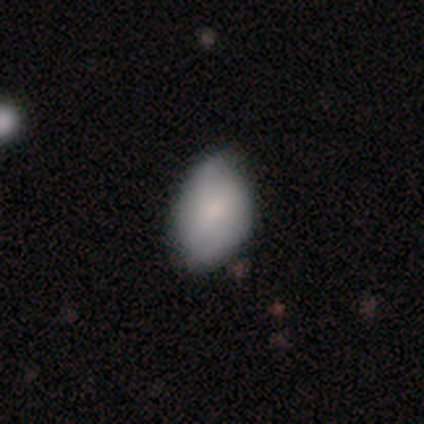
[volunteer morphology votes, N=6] Smooth or featured: smooth — 67% (featured or disk — 17%)
How rounded: in between — 100%
Merging: none — 80% (minor disturbance — 20%)